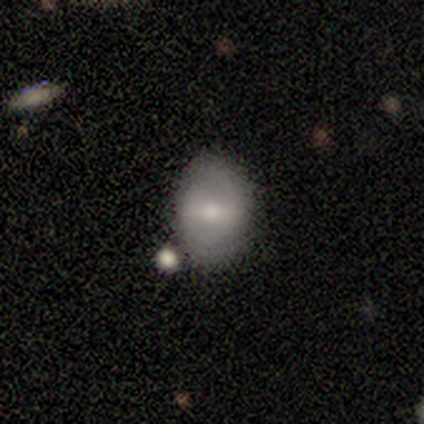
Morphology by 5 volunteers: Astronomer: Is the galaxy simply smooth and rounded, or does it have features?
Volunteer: smooth — 80%.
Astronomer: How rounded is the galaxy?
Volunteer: round — 50%, tied with in between at 50%.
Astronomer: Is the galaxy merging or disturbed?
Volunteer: none — 80%.